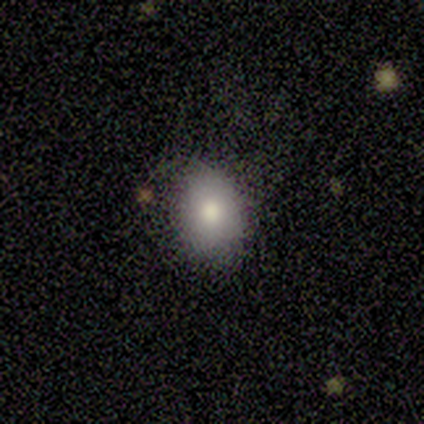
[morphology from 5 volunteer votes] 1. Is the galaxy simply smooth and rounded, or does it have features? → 100% smooth, 0% featured or disk, 0% star or artifact.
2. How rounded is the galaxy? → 60% in between, 40% round, 0% cigar-shaped.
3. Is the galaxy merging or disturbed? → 100% none, 0% minor disturbance, 0% major disturbance, 0% merger.